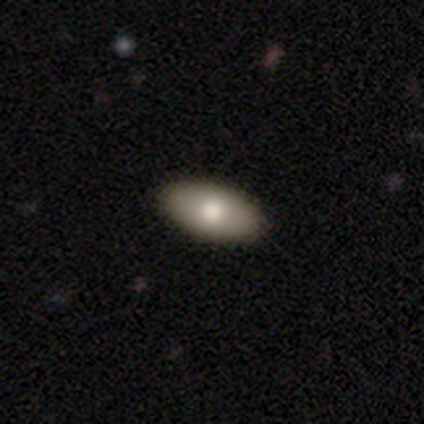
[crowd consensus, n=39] A smooth galaxy with no disk features (85%) that is in between round and cigar-shaped (94%).

Vote fractions:
- Smooth or featured? smooth: 85% / featured or disk: 13% / star or artifact: 3%
- How rounded? in between: 94% / round: 3% / cigar-shaped: 3%
- Merging? none: 95% / minor disturbance: 3% / major disturbance: 3% / merger: 0%